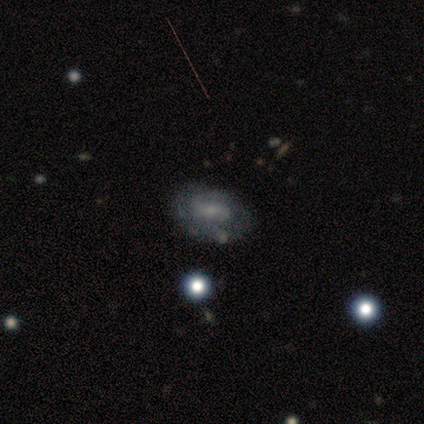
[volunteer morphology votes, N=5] featured or disk 60%, smooth 20%, star or artifact 20%. Down the decision tree: edge-on disk — no (100%); bar — strong (33%, tied with weak and no); spiral arms — yes (67%); spiral arm count — can't tell (100%); spiral winding — tight (50%, tied with loose); bulge size — small (67%); merging — none (75%).